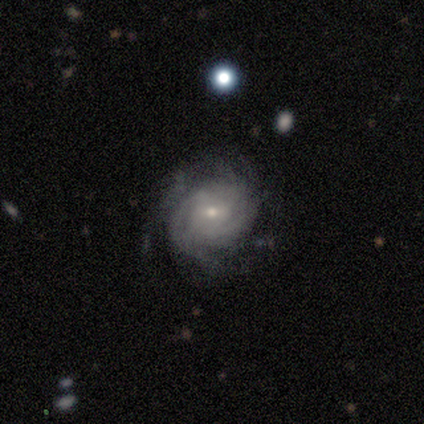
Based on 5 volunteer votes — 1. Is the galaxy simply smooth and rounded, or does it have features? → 100% featured or disk, 0% smooth, 0% star or artifact.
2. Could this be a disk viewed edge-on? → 100% no, 0% yes.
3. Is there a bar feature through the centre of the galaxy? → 60% weak, 40% no, 0% strong.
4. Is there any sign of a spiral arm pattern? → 100% yes, 0% no.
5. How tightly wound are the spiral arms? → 80% tight, 20% medium, 0% loose.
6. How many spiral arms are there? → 60% can't tell, 20% 3, 20% more than 4, 0% 1, 0% 2, 0% 4.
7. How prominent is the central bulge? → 60% small, 40% moderate, 0% dominant, 0% large, 0% none.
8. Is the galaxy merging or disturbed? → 80% none, 20% minor disturbance, 0% major disturbance, 0% merger.